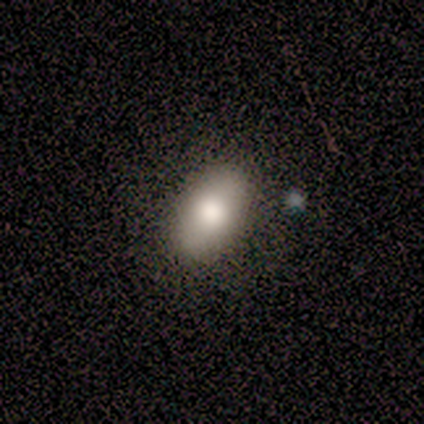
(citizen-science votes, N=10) smooth_or_featured: smooth (p=0.70) [alt: star or artifact p=0.20]
how_rounded: in between (p=1.00)
merging: none (p=1.00)